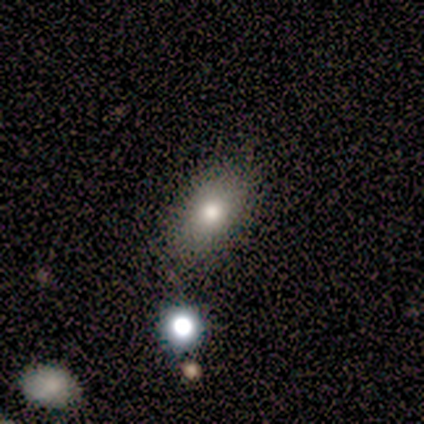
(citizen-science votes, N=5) A smooth galaxy with no disk features (80%) that is in between round and cigar-shaped (100%). Merging: none (100%).